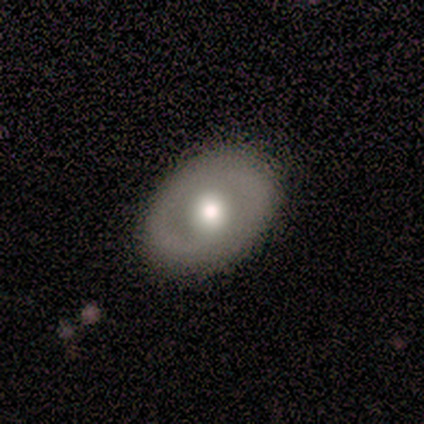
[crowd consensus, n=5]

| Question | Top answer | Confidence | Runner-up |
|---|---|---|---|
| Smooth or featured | smooth | 60% | featured or disk (40%) |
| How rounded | in between | 100% | — |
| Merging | none | 80% | minor disturbance (20%) |